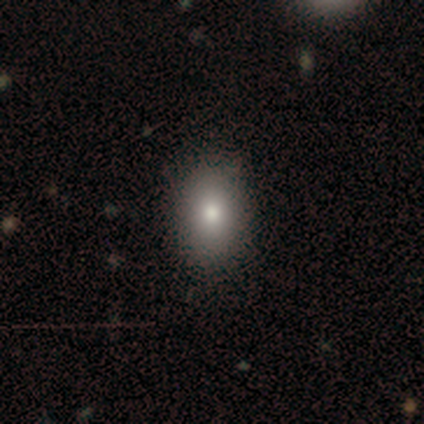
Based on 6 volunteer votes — Smooth or featured?
  - featured or disk: 50% *
  - smooth: 33%
  - star or artifact: 17%
Edge-on disk?
  - no: 100% *
  - yes: 0%
Bar?
  - no: 100% *
  - strong: 0%
  - weak: 0%
Spiral arms?
  - no: 100% *
  - yes: 0%
Bulge size?
  - moderate: 67% *
  - large: 33%
  - dominant: 0%
  - small: 0%
  - none: 0%
Merging?
  - none: 100% *
  - minor disturbance: 0%
  - major disturbance: 0%
  - merger: 0%